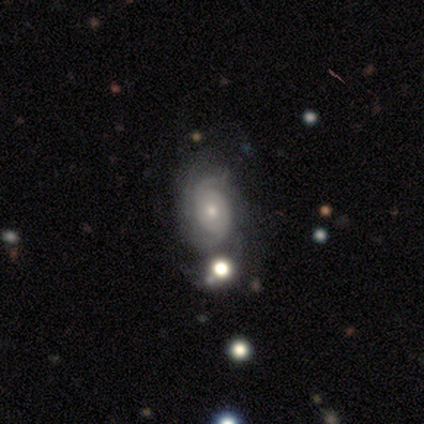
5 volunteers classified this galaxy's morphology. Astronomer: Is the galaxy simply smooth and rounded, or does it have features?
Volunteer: featured or disk — 80%.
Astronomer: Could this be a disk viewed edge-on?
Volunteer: no — 100%.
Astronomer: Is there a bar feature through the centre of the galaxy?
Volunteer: no — 75%.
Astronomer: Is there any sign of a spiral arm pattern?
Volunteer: yes — 75%.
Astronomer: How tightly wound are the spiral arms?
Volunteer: tight — 67%.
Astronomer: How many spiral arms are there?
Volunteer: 2 — 67%.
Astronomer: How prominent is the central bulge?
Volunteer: moderate — 75%.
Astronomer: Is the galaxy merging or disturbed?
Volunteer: minor disturbance — 60%.